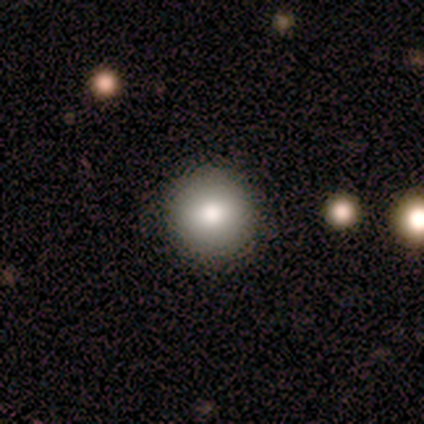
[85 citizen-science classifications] smooth-or-featured: smooth: 78% | featured or disk: 16% | star or artifact: 6%
  how-rounded: round: 97% | in between: 3% | cigar-shaped: 0%
  merging: none: 92% | minor disturbance: 5% | major disturbance: 1% | merger: 1%